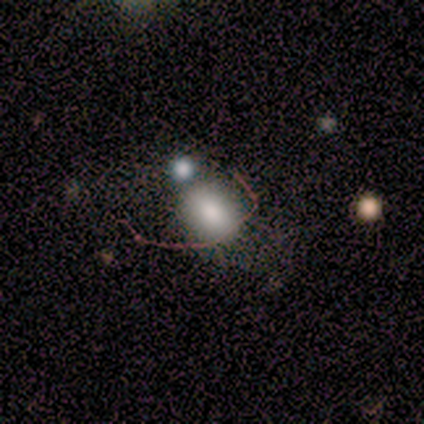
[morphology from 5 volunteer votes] This appears to be a smooth galaxy with no disk features (80%) that is round (50%, tied with in between). Merging: none (40%, tied with merger).